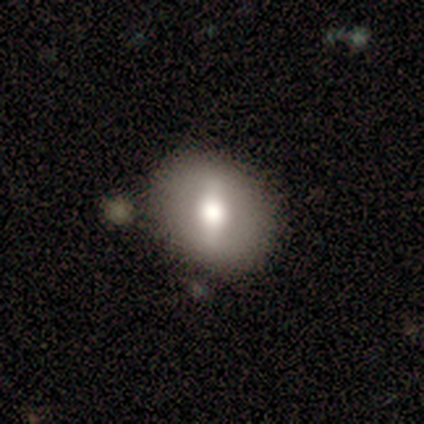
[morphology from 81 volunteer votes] A smooth galaxy with no disk features (52%) that is round (60%).

Vote fractions:
- Smooth or featured? smooth: 52% / featured or disk: 43% / star or artifact: 5%
- How rounded? round: 60% / in between: 36% / cigar-shaped: 5%
- Merging? none: 32% / merger: 12% / minor disturbance: 10% / major disturbance: 1%